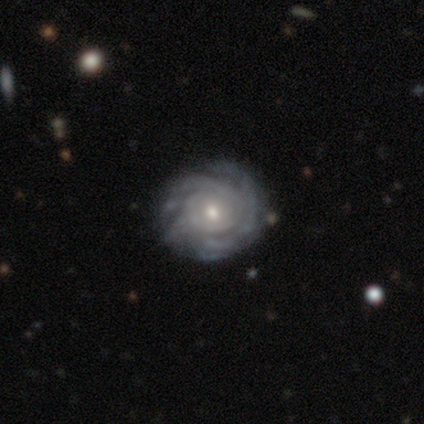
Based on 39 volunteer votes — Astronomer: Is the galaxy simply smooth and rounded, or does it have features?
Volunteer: featured or disk — 95%.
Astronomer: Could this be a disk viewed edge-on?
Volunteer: no — 100%.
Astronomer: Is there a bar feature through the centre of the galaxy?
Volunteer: no — 78%.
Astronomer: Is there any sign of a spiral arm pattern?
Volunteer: yes — 97%.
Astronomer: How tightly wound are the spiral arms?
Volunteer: tight — 75%.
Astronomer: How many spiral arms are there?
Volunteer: can't tell — 56%.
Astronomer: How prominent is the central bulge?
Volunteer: moderate — 57% (runner-up: small, 41%).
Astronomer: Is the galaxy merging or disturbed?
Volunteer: none — 74%.